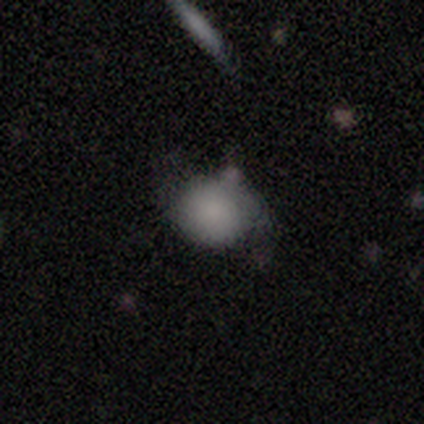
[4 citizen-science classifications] Smooth or featured: smooth — 50% (tied with featured or disk — 50%)
How rounded: round — 50% (tied with in between — 50%)
Merging: minor disturbance — 50% (none — 25%)